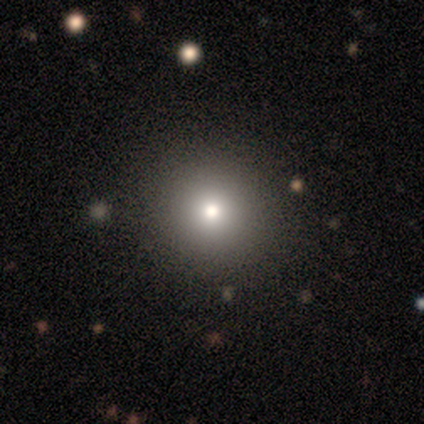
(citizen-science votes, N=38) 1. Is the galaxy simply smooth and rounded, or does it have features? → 68% smooth, 24% star or artifact, 8% featured or disk.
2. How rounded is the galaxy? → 92% round, 8% in between, 0% cigar-shaped.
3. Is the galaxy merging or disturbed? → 100% none, 0% minor disturbance, 0% major disturbance, 0% merger.